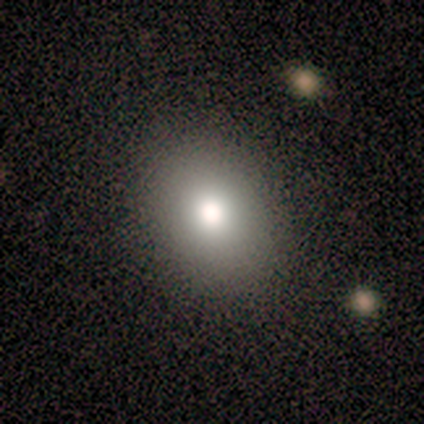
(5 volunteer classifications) smooth-or-featured: smooth: 80% | star or artifact: 20% | featured or disk: 0%
  how-rounded: round: 50% (tied) | in between: 50% (tied) | cigar-shaped: 0%
  merging: none: 100% | minor disturbance: 0% | major disturbance: 0% | merger: 0%